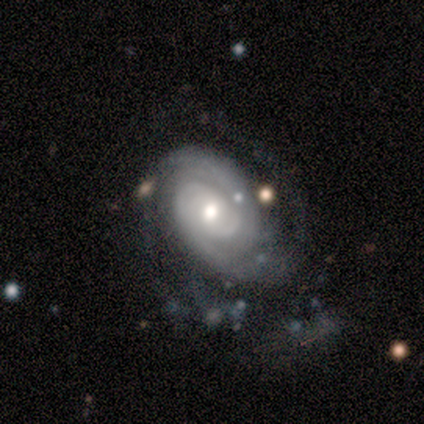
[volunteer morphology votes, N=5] Smooth or featured?
  - featured or disk: 60% *
  - smooth: 20%
  - star or artifact: 20%
Edge-on disk?
  - no: 100% *
  - yes: 0%
Bar?
  - weak: 67% *
  - no: 33%
  - strong: 0%
Spiral arms?
  - yes: 100% *
  - no: 0%
Spiral winding?
  - medium: 67% *
  - loose: 33%
  - tight: 0%
Spiral arm count?
  - 2: 100% *
  - 1: 0%
  - 3: 0%
  - 4: 0%
  - more than 4: 0%
  - can't tell: 0%
Bulge size?
  - moderate: 67% *
  - small: 33%
  - dominant: 0%
  - large: 0%
  - none: 0%
Merging?
  - minor disturbance: 75% *
  - merger: 25%
  - none: 0%
  - major disturbance: 0%